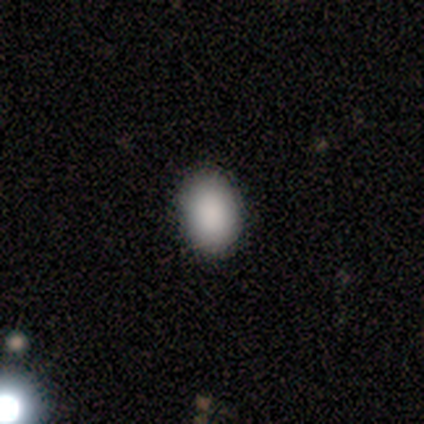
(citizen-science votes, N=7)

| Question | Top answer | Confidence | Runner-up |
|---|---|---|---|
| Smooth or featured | smooth | 100% | — |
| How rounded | in between | 100% | — |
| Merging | none | 100% | — |